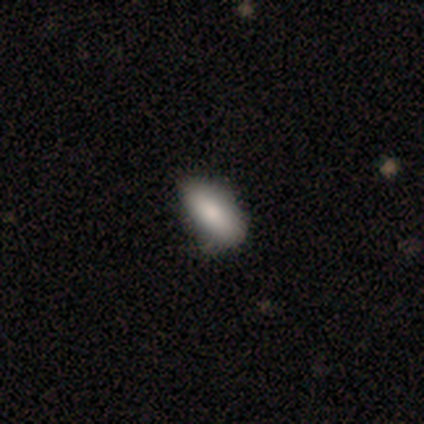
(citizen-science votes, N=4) Smooth or featured?
  - smooth: 100% *
  - featured or disk: 0%
  - star or artifact: 0%
How rounded?
  - in between: 75% *
  - cigar-shaped: 25%
  - round: 0%
Merging?
  - none: 75% *
  - minor disturbance: 25%
  - major disturbance: 0%
  - merger: 0%